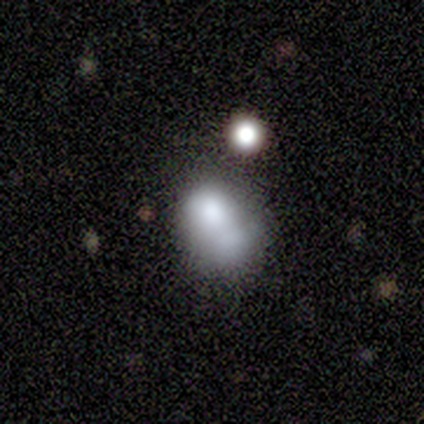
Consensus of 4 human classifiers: Smooth or featured: smooth — 100%
How rounded: in between — 100%
Merging: minor disturbance — 75% (merger — 25%)